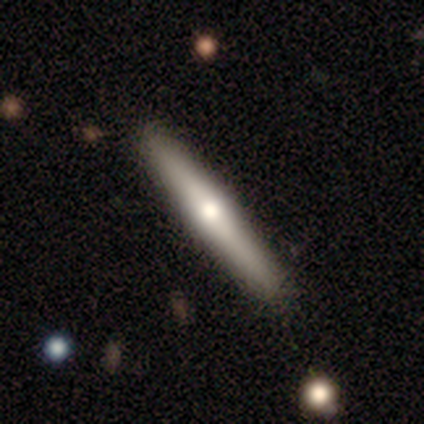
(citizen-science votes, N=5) Volunteers were most divided on "smooth or featured": featured or disk: 80%, smooth: 20%, star or artifact: 0%. More confident: edge-on disk — yes (100%); edge-on bulge — rounded (100%); merging — none (100%).